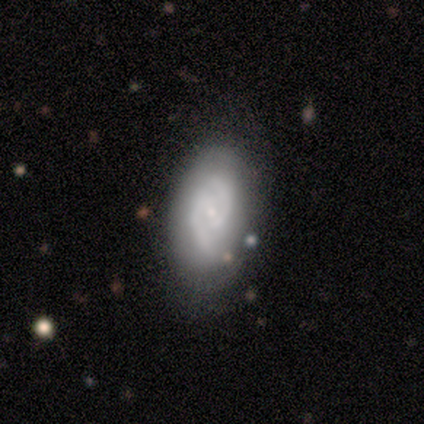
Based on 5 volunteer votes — This appears to be a featured or disk galaxy (80%) with a weak bar (50%, tied with no), 2 (100%) medium (75%) spiral arms (100%) and a small central bulge (75%). Merging: none (60%).